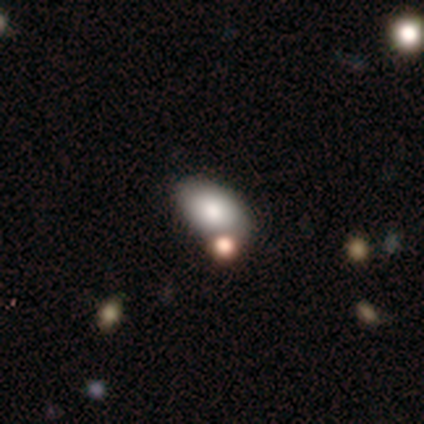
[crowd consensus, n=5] Smooth or featured? smooth (100%)
How rounded? in between (100%)
Merging? none (40%, tied with minor disturbance)